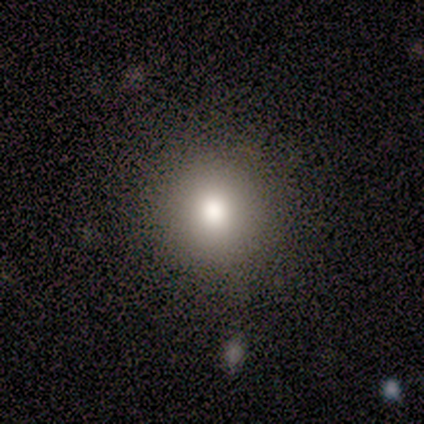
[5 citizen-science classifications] A smooth galaxy with no disk features (80%) that is round (100%). Merging: none (75%).